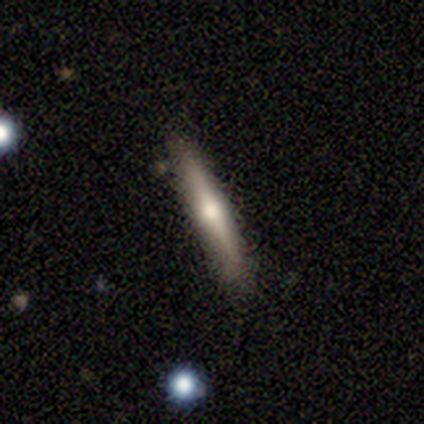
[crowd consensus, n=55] Smooth or featured? 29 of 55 (53%) said featured or disk. Edge-on disk? 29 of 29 (100%) said yes. Edge-on bulge? 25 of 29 (86%) said rounded. Merging? 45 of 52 (87%) said none.